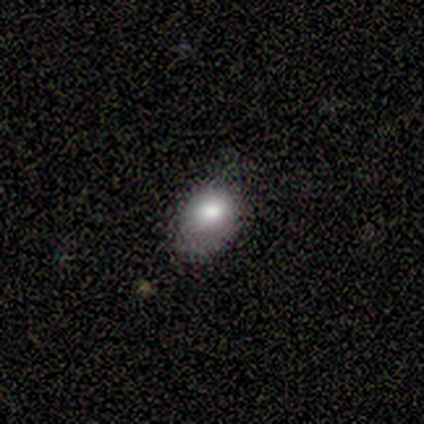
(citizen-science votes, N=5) This appears to be a smooth galaxy with no disk features (80%) that is in between round and cigar-shaped (75%). Merging: none (80%).